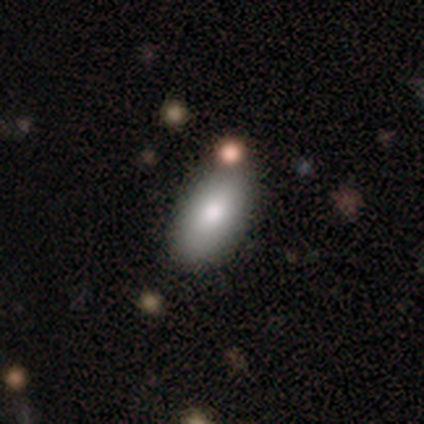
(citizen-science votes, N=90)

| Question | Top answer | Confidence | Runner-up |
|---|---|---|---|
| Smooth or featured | smooth | 90% | star or artifact (9%) |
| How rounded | in between | 83% | cigar-shaped (14%) |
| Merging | none | 68% | minor disturbance (20%) |